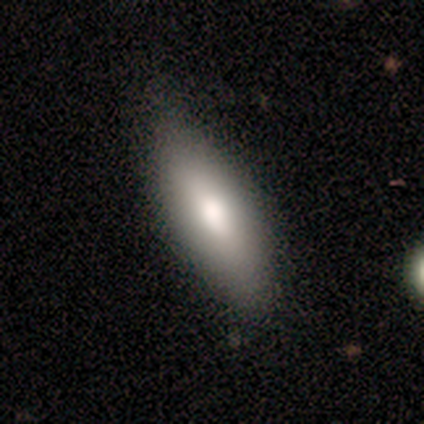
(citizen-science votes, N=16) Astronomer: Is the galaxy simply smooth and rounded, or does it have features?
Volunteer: smooth — 100%.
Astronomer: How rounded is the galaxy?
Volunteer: in between — 62%.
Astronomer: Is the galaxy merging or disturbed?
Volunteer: none — 81%.